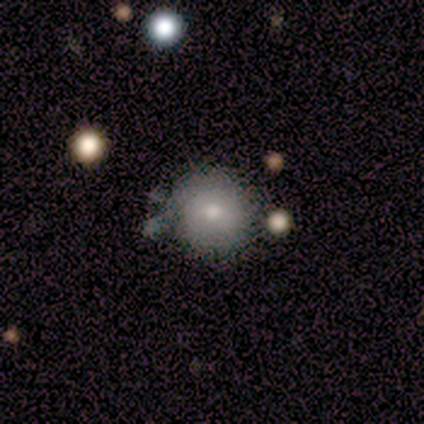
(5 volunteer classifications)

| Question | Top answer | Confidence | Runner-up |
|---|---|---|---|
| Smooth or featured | featured or disk | 80% | smooth (20%) |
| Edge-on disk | no | 100% | — |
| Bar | no | 75% | weak (25%) |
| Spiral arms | no | 100% | — |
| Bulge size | moderate | 50% | tied: small (50%) |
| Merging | none | 80% | minor disturbance (20%) |